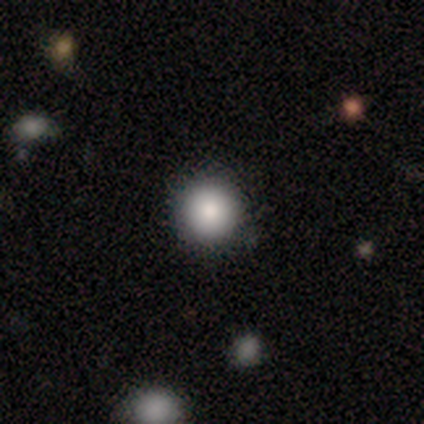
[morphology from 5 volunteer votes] Smooth or featured? smooth (80%)
How rounded? round (100%)
Merging? none (60%)